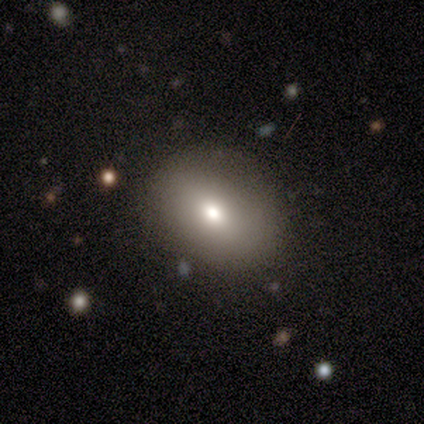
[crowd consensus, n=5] Smooth or featured? 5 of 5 (100%) said smooth. How rounded? 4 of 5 (80%) said in between. Merging? 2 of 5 (40%, tied with major disturbance) said none.